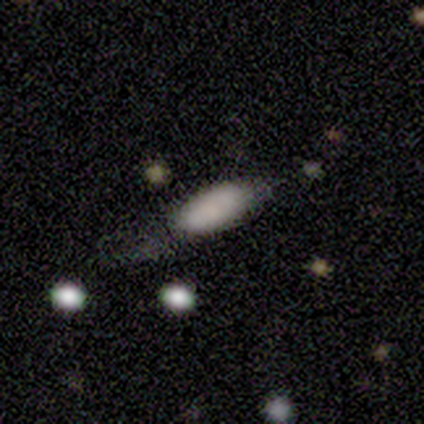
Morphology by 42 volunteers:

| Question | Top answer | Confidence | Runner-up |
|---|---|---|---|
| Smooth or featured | smooth | 88% | featured or disk (7%) |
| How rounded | in between | 86% | cigar-shaped (14%) |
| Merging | none | 35% | tied: minor disturbance (35%) |